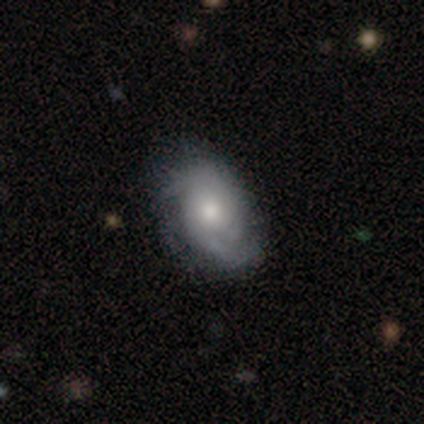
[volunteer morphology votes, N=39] Smooth or featured? featured or disk (59%)
Edge-on disk? no (100%)
Bar? no (83%)
Spiral arms? yes (91%)
Spiral winding? tight (67%)
Spiral arm count? 2 (52%)
Bulge size? moderate (74%)
Merging? none (76%)